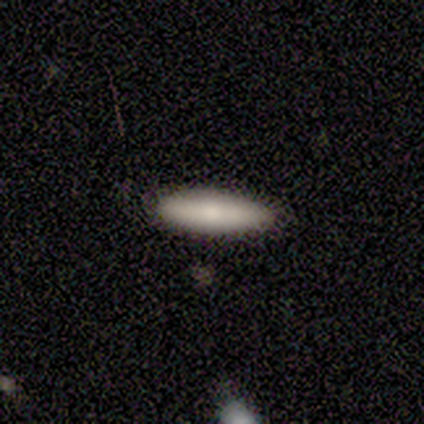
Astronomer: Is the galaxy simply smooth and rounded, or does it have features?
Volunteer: smooth — 80%.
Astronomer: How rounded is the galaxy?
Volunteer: cigar-shaped — 75%.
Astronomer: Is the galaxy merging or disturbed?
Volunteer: none — 100%.